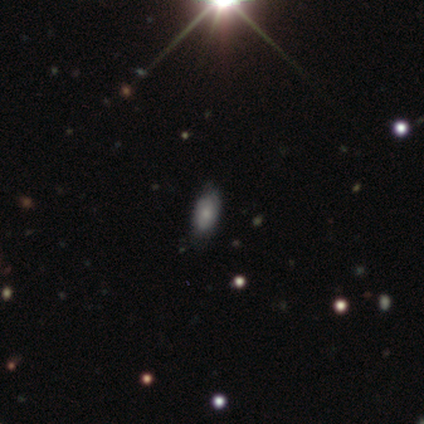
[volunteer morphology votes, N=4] Smooth or featured?
  - smooth: 75% *
  - featured or disk: 25%
  - star or artifact: 0%
How rounded?
  - in between: 100% *
  - round: 0%
  - cigar-shaped: 0%
Merging?
  - none: 100% *
  - minor disturbance: 0%
  - major disturbance: 0%
  - merger: 0%